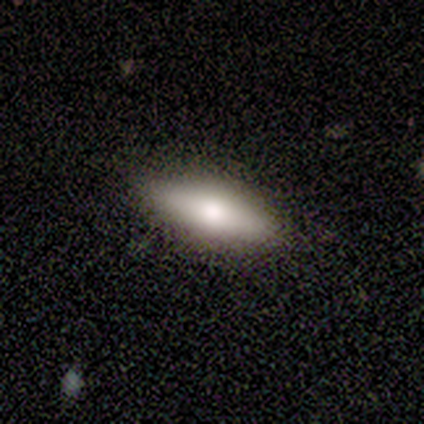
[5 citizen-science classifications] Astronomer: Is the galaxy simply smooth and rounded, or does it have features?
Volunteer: smooth — 60% (runner-up: featured or disk, 40%).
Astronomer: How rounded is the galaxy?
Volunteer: in between — 100%.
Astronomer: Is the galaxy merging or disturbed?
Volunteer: none — 100%.